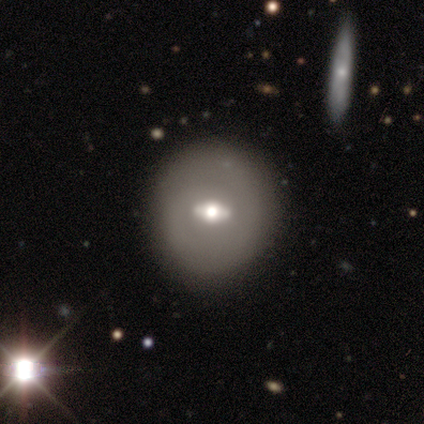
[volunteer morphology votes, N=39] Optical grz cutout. It shows a featured or disk galaxy (62%) with a strong bar (65%), no spiral arms (82%) and a moderate central bulge (65%). Merging: none (95%).